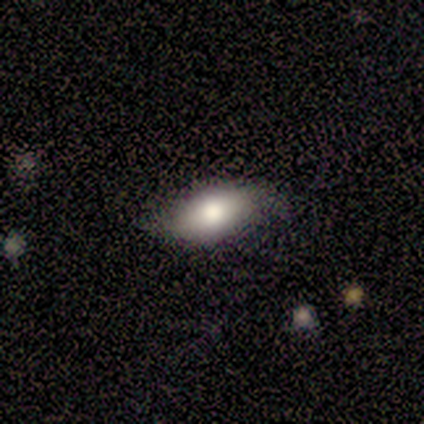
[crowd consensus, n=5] Smooth or featured? 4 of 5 (80%) said smooth. How rounded? 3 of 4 (75%) said in between. Merging? 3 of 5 (60%) said none.